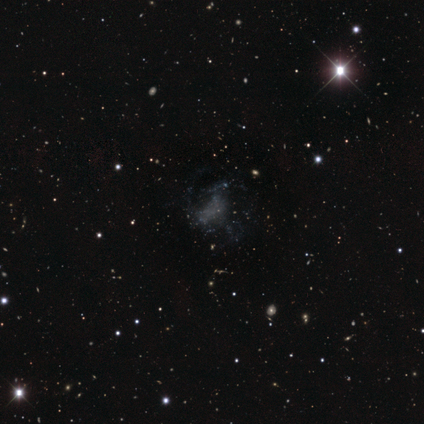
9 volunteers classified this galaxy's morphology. Smooth or featured: star or artifact — 44% (featured or disk — 33%)